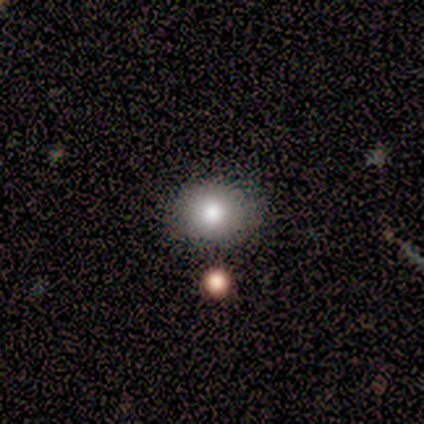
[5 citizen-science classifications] smooth 80%, star or artifact 20%, featured or disk 0%. Down the decision tree: how rounded — round (50%, tied with in between); merging — none (75%).